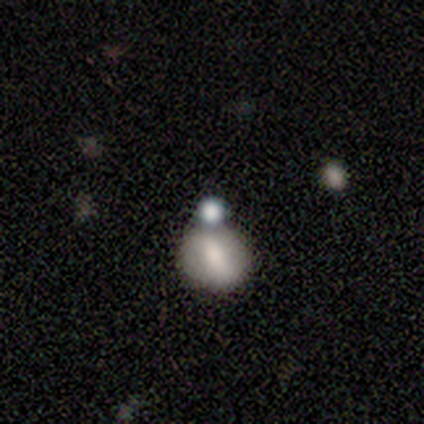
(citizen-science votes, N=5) Volunteers were most divided on "smooth or featured" (2-way tie): smooth: 40%, featured or disk: 40%, star or artifact: 20%. More confident: how rounded — round (100%); merging — none (50%).